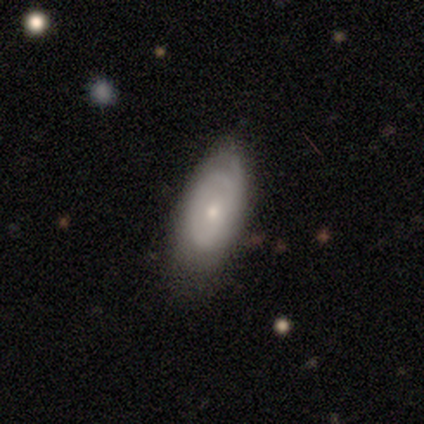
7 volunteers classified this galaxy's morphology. Volunteers were most divided on "smooth or featured" (2-way tie): smooth: 43%, featured or disk: 43%, star or artifact: 14%; "merging" (2-way tie): none: 50%, minor disturbance: 50%, major disturbance: 0%, merger: 0%. More confident: how rounded — in between (100%).